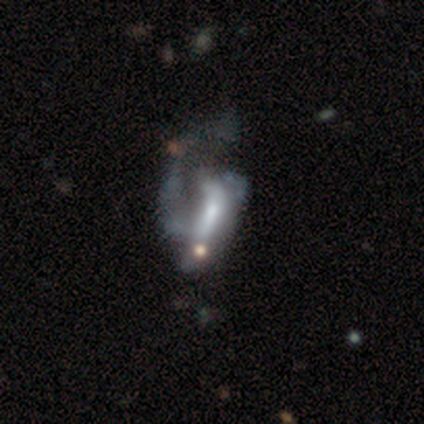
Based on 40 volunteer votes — Smooth or featured?
  - featured or disk: 75% *
  - smooth: 18%
  - star or artifact: 8%
Edge-on disk?
  - no: 100% *
  - yes: 0%
Bar?
  - no: 53% *
  - weak: 27%
  - strong: 20%
Spiral arms?
  - yes: 50% * (tied)
  - no: 50% * (tied)
Spiral winding?
  - loose: 47% *
  - tight: 33%
  - medium: 20%
Spiral arm count?
  - 1: 53% *
  - 2: 40%
  - 3: 7%
  - 4: 0%
  - more than 4: 0%
  - can't tell: 0%
Bulge size?
  - moderate: 37% * (tied)
  - small: 37% * (tied)
  - large: 17%
  - none: 10%
  - dominant: 0%
Merging?
  - major disturbance: 30% *
  - minor disturbance: 11%
  - merger: 11%
  - none: 8%